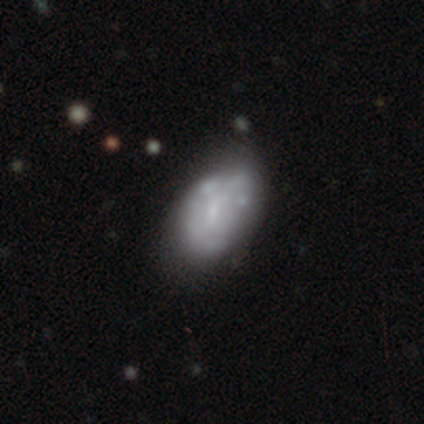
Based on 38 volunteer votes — A featured or disk galaxy (63%) with no bar (71%), no spiral arms (71%) and a small central bulge (54%). Merging: minor disturbance (40%).